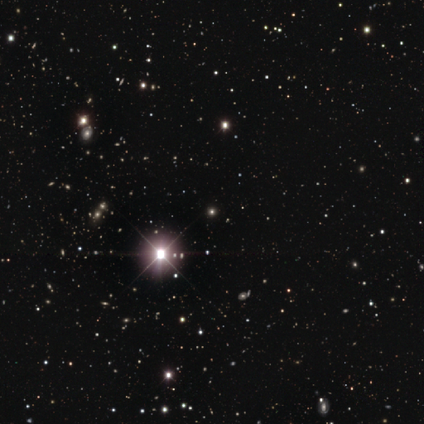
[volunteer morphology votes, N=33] This is clearly a star or artifact rather than a galaxy (82%).